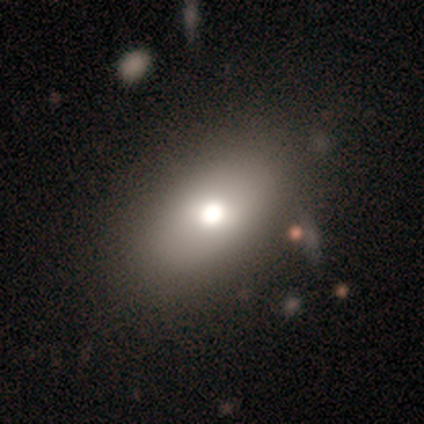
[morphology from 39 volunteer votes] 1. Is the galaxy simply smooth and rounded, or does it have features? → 69% smooth, 23% featured or disk, 8% star or artifact.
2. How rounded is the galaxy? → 89% in between, 11% round, 0% cigar-shaped.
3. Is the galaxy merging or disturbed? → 78% none, 14% minor disturbance, 6% major disturbance, 3% merger.